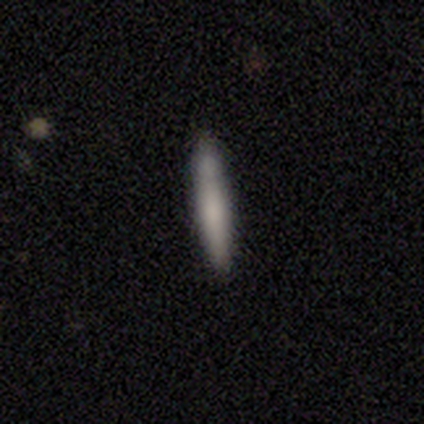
smooth 80%, featured or disk 20%, star or artifact 0%. Down the decision tree: how rounded — cigar-shaped (100%); merging — none (100%).